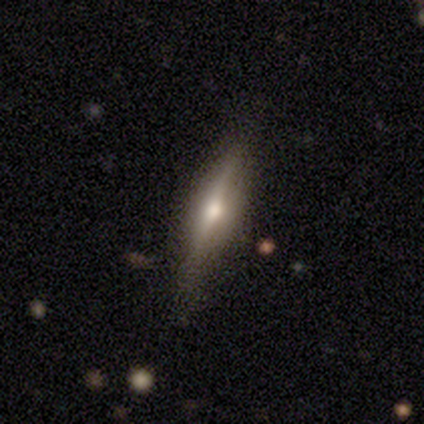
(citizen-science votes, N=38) smooth_or_featured: featured or disk (p=0.58) [alt: smooth p=0.21]
disk_edge_on: yes (p=0.86) [alt: no p=0.14]
edge_on_bulge: rounded (p=0.95) [alt: none p=0.05]
merging: none (p=0.83) [alt: minor disturbance p=0.17]